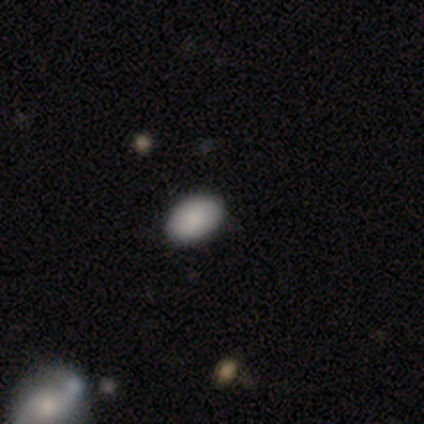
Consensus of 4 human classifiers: Smooth or featured? smooth (75%)
How rounded? in between (100%)
Merging? none (100%)